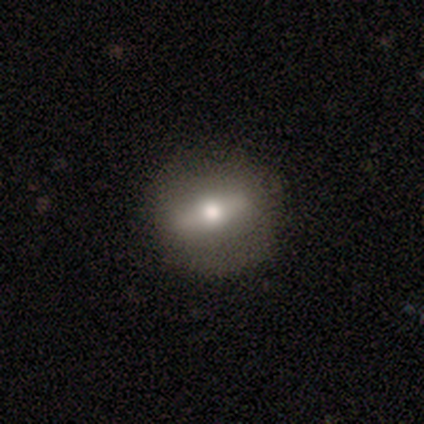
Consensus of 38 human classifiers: This appears to be a featured or disk galaxy (55%) with a strong bar (60%), no spiral arms (67%) and a moderate central bulge (80%). Merging: none (74%).